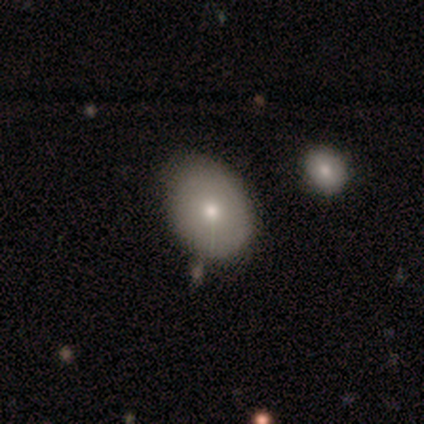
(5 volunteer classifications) This is clearly a smooth galaxy (100%). How rounded: likely in between (60%). Merging: clearly none (80%).